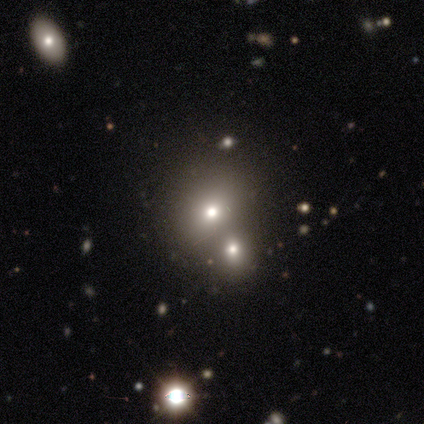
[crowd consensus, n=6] smooth_or_featured: smooth (p=0.50) [tied with: star or artifact p=0.50]
how_rounded: round (p=1.00)
merging: merger (p=0.67) [alt: major disturbance p=0.33]